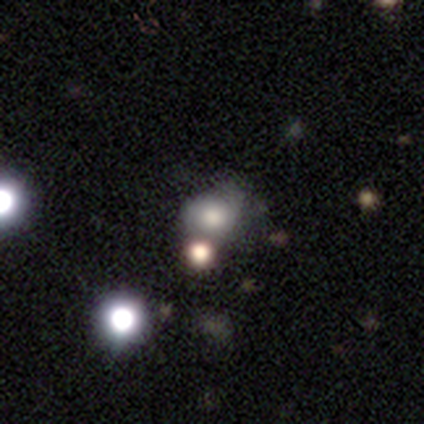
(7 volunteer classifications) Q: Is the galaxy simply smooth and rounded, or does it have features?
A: smooth — 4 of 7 (57%).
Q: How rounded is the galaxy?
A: in between — 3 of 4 (75%).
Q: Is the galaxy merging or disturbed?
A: none — 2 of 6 (33%, tied with minor disturbance).